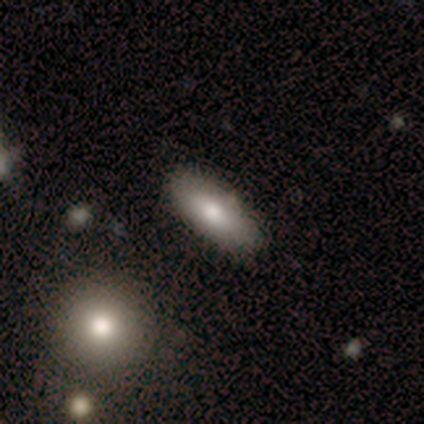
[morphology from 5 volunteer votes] Overall: smooth (80%). How rounded: in between (100%). Merging: none (100%).